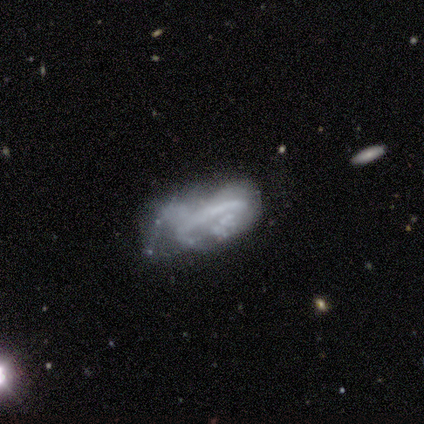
A smooth galaxy with no disk features (40%, tied with featured or disk) that is in between round and cigar-shaped (100%). Merging: minor disturbance (50%).